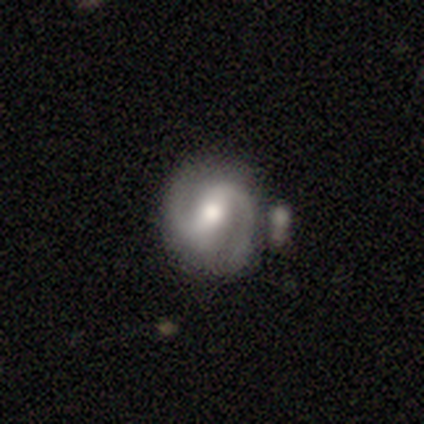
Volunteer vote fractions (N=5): Overall: featured or disk (80%). Edge-on disk: no (75%). Bar: weak (67%; strong 33%). Spiral arms: yes (100%). Spiral arm count: 2 (100%). Spiral winding: medium (67%; tight 33%). Bulge size: moderate (100%). Merging: none (40%; minor disturbance 20%).